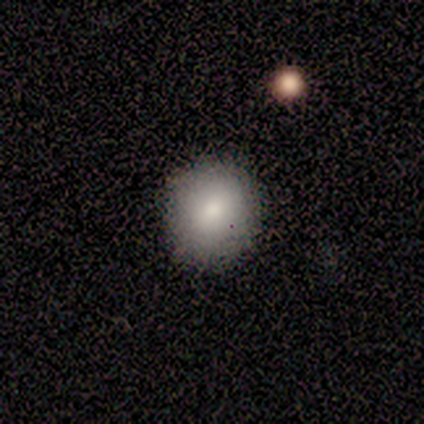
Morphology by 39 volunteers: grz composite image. It shows a smooth galaxy with no disk features (74%) that is round (83%). Merging: none (78%).